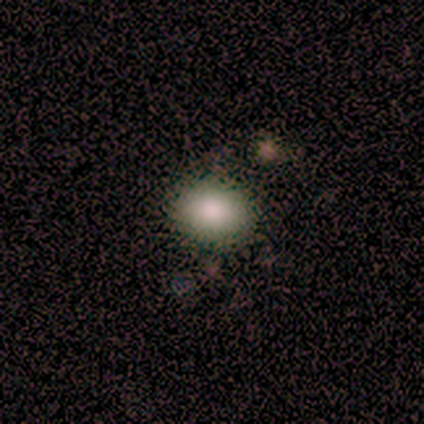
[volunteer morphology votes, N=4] Smooth or featured?
  - smooth: 75% *
  - featured or disk: 25%
  - star or artifact: 0%
How rounded?
  - in between: 67% *
  - round: 33%
  - cigar-shaped: 0%
Merging?
  - none: 100% *
  - minor disturbance: 0%
  - major disturbance: 0%
  - merger: 0%